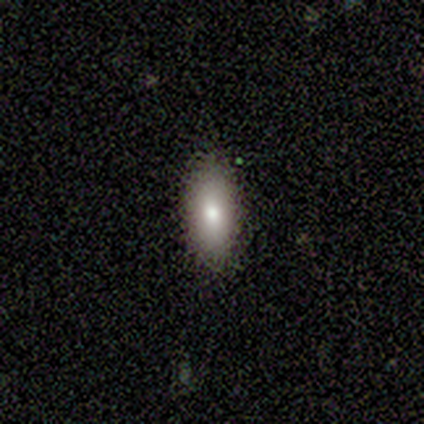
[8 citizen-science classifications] This is clearly a smooth galaxy (100%). How rounded: likely in between (75%). Merging: clearly none (88%).